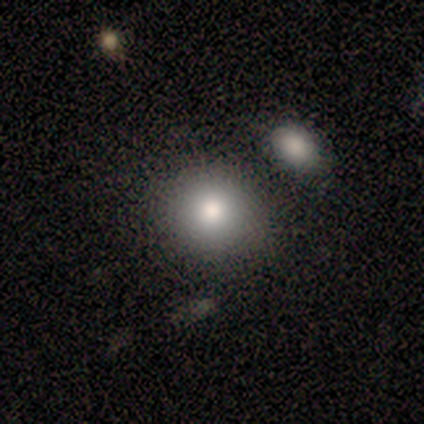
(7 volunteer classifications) smooth 86%, star or artifact 14%, featured or disk 0%. Down the decision tree: how rounded — round (100%); merging — none (67%).